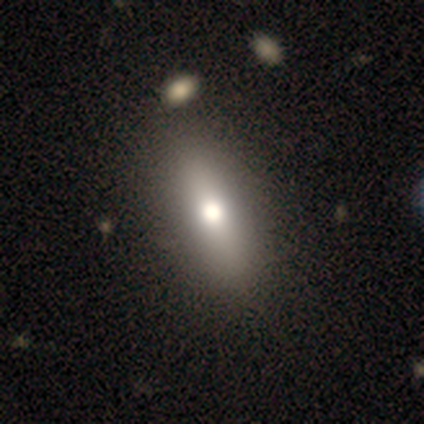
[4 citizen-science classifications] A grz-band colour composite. It shows a smooth galaxy with no disk features (50%, tied with featured or disk) that is in between round and cigar-shaped (100%). Merging: none (75%).